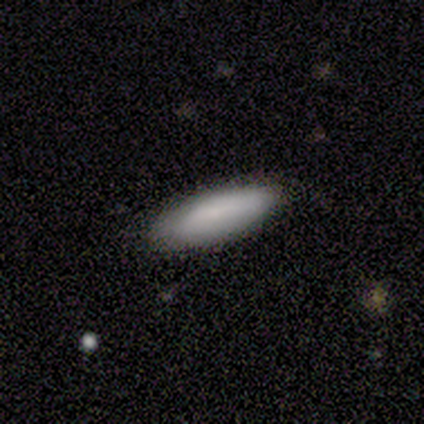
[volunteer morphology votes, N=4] smooth_or_featured: smooth (p=1.00)
how_rounded: in between (p=0.50) [tied with: cigar-shaped p=0.50]
merging: none (p=0.75) [alt: minor disturbance p=0.25]